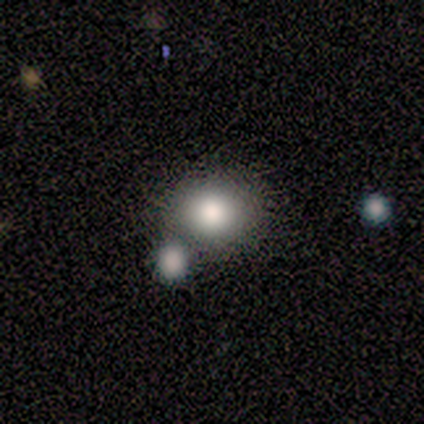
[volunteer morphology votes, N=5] This is likely a smooth galaxy (60%). How rounded: likely in between (67%). Merging: likely none (75%).